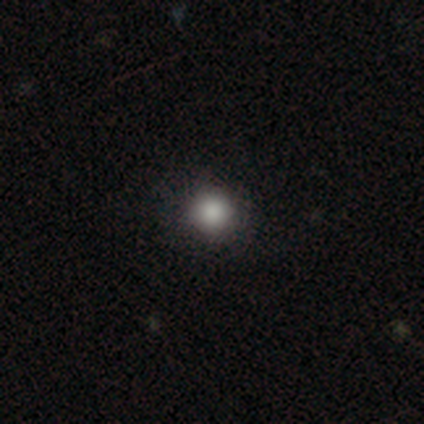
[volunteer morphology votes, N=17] Q: Smooth or featured?
A: smooth (88%); runner-up: star or artifact (12%)
Q: How rounded?
A: round (93%); runner-up: in between (7%)
Q: Merging?
A: none (87%); runner-up: minor disturbance (13%)